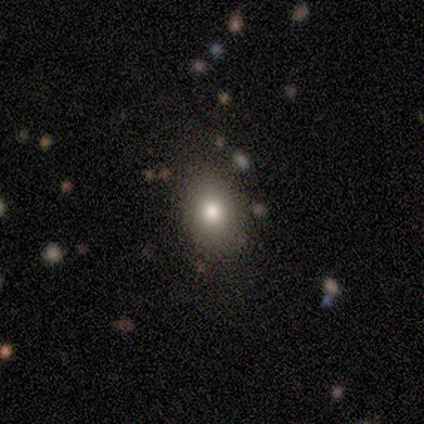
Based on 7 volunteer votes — A smooth galaxy with no disk features (71%) that is in between round and cigar-shaped (100%).

Vote fractions:
- Smooth or featured? smooth: 71% / featured or disk: 14% / star or artifact: 14%
- How rounded? in between: 100% / round: 0% / cigar-shaped: 0%
- Merging? none: 100% / minor disturbance: 0% / major disturbance: 0% / merger: 0%